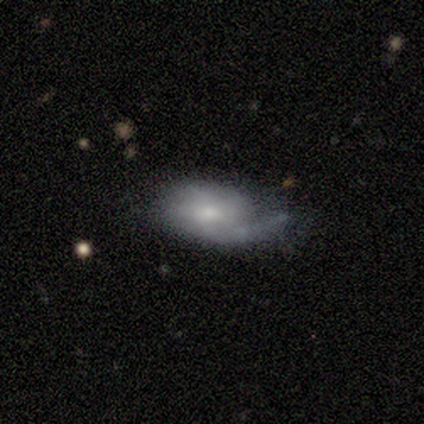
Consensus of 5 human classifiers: Smooth or featured: smooth — 60% (featured or disk — 40%)
How rounded: in between — 67% (cigar-shaped — 33%)
Merging: none — 60% (major disturbance — 20%)